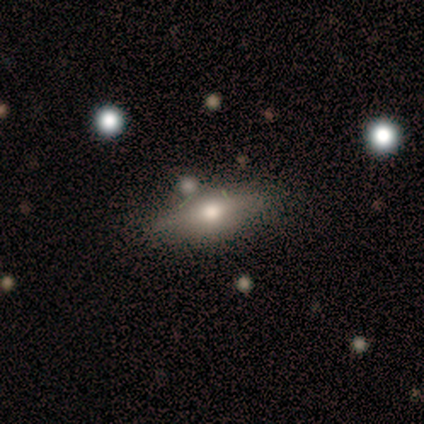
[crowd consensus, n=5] A featured or disk galaxy (60%) viewed edge-on (67%) with a rounded central bulge (100%). Merging: none (75%).